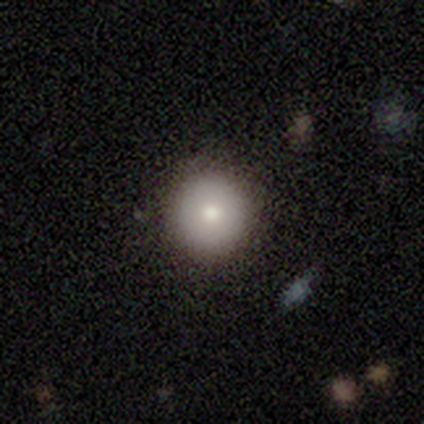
This appears to be a smooth galaxy with no disk features (70%) that is round (100%). Merging: none (75%).